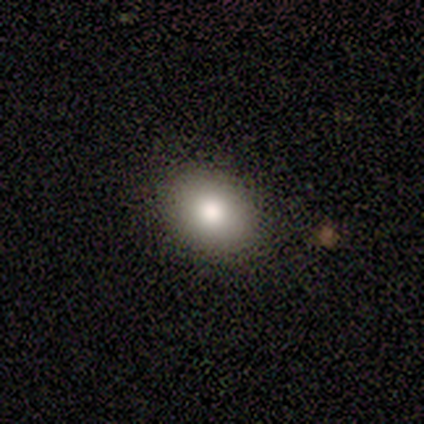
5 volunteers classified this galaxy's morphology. Volunteers were most divided on "how rounded" (2-way tie): round: 50%, in between: 50%, cigar-shaped: 0%. More confident: merging — none (100%); smooth or featured — smooth (80%).